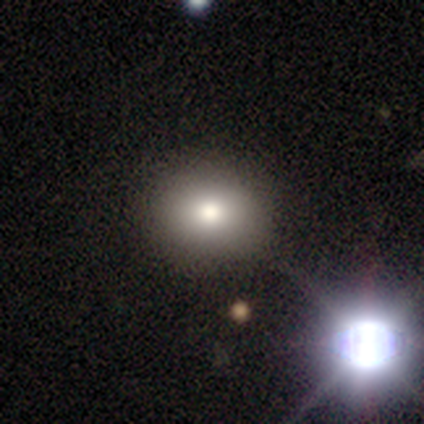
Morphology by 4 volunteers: Q: Smooth or featured?
A: smooth (75%); runner-up: star or artifact (25%)
Q: How rounded?
A: round (67%); runner-up: in between (33%)
Q: Merging?
A: none (100%)